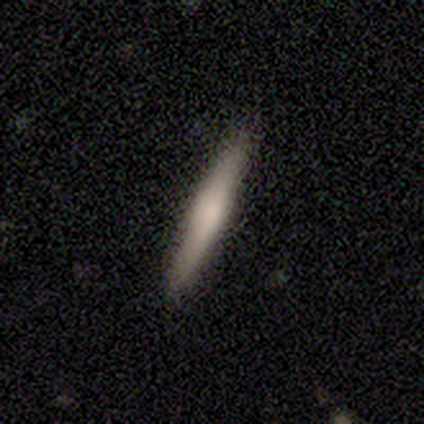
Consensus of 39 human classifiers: Q: Smooth or featured?
A: smooth (56%); runner-up: featured or disk (41%)
Q: How rounded?
A: cigar-shaped (100%)
Q: Merging?
A: none (92%); runner-up: minor disturbance (8%)